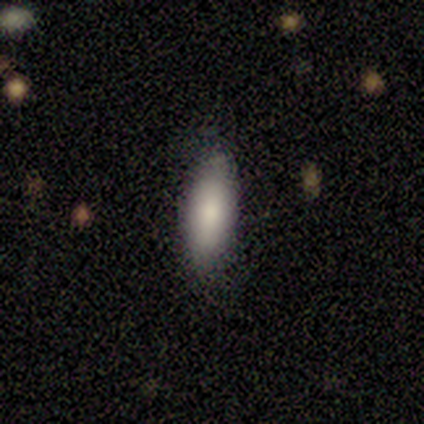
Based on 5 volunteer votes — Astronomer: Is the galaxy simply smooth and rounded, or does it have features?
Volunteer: smooth — 80%.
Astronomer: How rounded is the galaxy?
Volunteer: in between — 75%.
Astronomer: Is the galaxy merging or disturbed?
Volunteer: none — 80%.